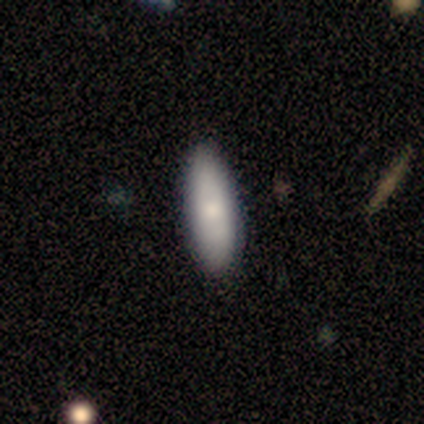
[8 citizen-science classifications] Smooth or featured? 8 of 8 (100%) said smooth. How rounded? 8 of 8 (100%) said in between. Merging? 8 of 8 (100%) said none.